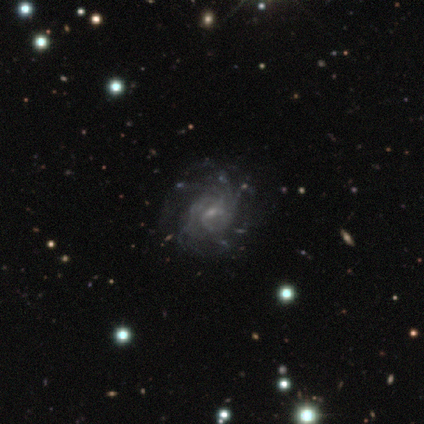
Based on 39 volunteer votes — Overall: featured or disk (92%). Edge-on disk: no (94%). Bar: weak (68%; no 29%). Spiral arms: yes (94%). Spiral arm count: more than 4 (47%; can't tell 41%). Spiral winding: tight (56%; medium 31%). Bulge size: small (79%). Merging: none (36%; minor disturbance 18%).